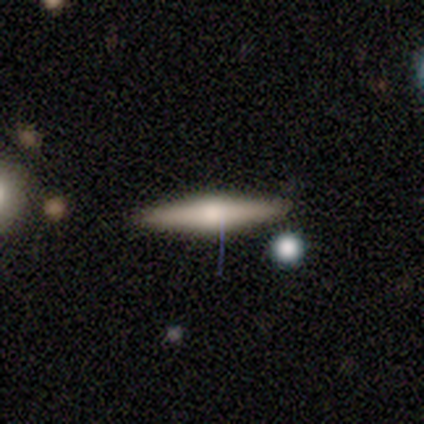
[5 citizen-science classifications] smooth-or-featured: featured or disk: 60% | smooth: 40% | star or artifact: 0%
  disk-edge-on: yes: 100% | no: 0%
    edge-on-bulge: rounded: 100% | boxy: 0% | none: 0%
  merging: none: 80% | minor disturbance: 20% | major disturbance: 0% | merger: 0%